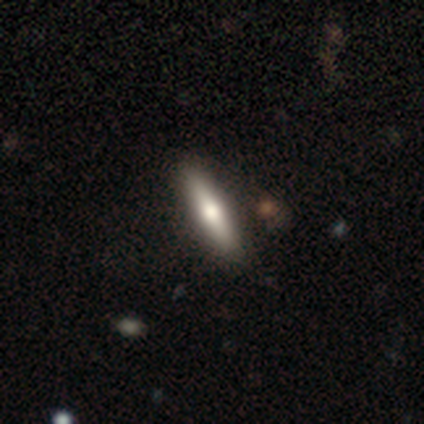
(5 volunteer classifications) A smooth galaxy with no disk features (60%) that is cigar-shaped (100%).

Vote fractions:
- Smooth or featured? smooth: 60% / featured or disk: 40% / star or artifact: 0%
- How rounded? cigar-shaped: 100% / round: 0% / in between: 0%
- Merging? none: 80% / minor disturbance: 20% / major disturbance: 0% / merger: 0%